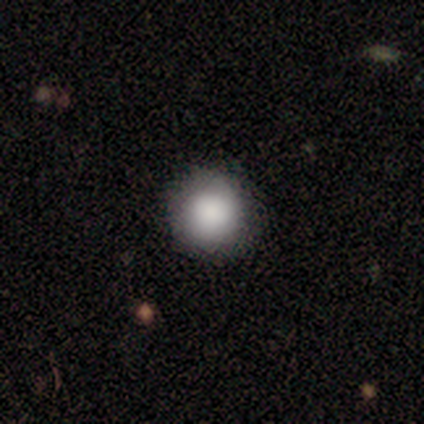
Smooth or featured?
  - smooth: 80% *
  - featured or disk: 20%
  - star or artifact: 0%
How rounded?
  - round: 75% *
  - in between: 25%
  - cigar-shaped: 0%
Merging?
  - none: 100% *
  - minor disturbance: 0%
  - major disturbance: 0%
  - merger: 0%